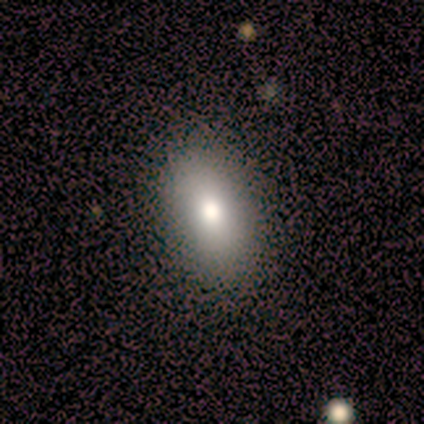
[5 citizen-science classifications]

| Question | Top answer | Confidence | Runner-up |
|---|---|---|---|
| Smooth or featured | smooth | 60% | featured or disk (20%) |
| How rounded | in between | 100% | — |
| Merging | none | 75% | minor disturbance (25%) |